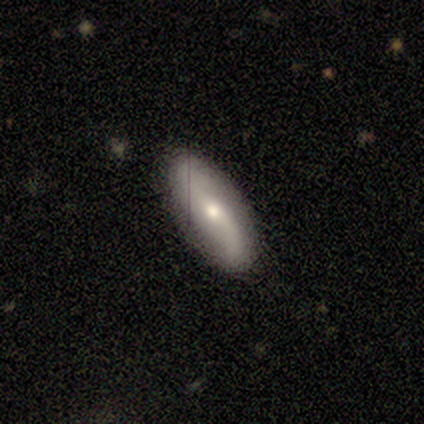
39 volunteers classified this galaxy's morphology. This is likely a featured or disk galaxy (67%). It is clearly not viewed edge-on (96%). Bar: marginally no (44%). Spiral arm pattern: clearly yes (84%). Spiral arm count: clearly 2 (100%). Spiral winding: likely loose (71%). Central bulge: likely moderate (64%). Merging: clearly none (89%).